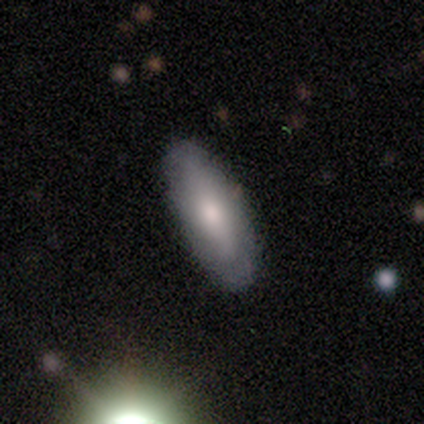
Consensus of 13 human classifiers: A smooth galaxy with no disk features (54%) that is in between round and cigar-shaped (86%).

Vote fractions:
- Smooth or featured? smooth: 54% / featured or disk: 46% / star or artifact: 0%
- How rounded? in between: 86% / cigar-shaped: 14% / round: 0%
- Merging? none: 77% / minor disturbance: 23% / major disturbance: 0% / merger: 0%